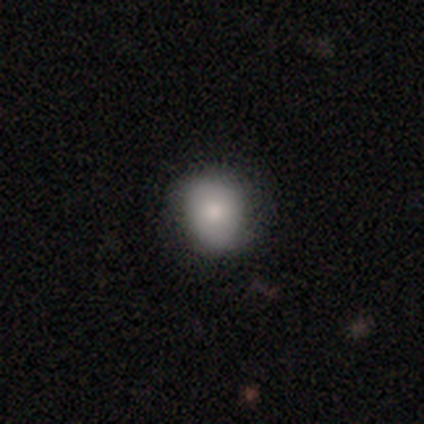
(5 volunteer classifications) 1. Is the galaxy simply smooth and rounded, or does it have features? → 100% smooth, 0% featured or disk, 0% star or artifact.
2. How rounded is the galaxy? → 100% round, 0% in between, 0% cigar-shaped.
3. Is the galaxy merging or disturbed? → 80% none, 20% minor disturbance, 0% major disturbance, 0% merger.